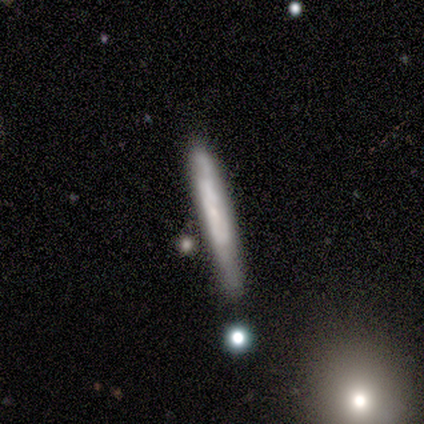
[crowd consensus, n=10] This appears to be a featured or disk galaxy (70%) viewed edge-on (57%) with a boxy central bulge (50%, tied with none). Merging: none (60%).